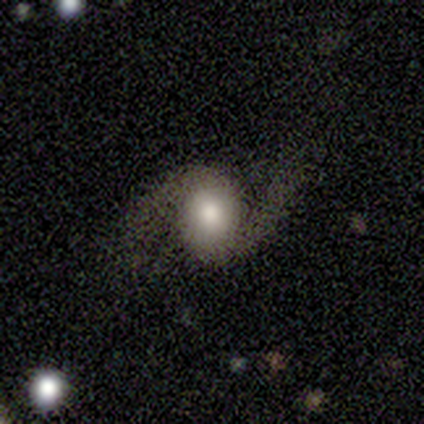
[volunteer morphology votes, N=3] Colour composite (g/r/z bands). It shows a featured or disk galaxy (100%) with no bar (100%), 2 (100%) medium (50%, tied with loose) spiral arms (100%) and a moderate central bulge (100%). Merging: none (67%).